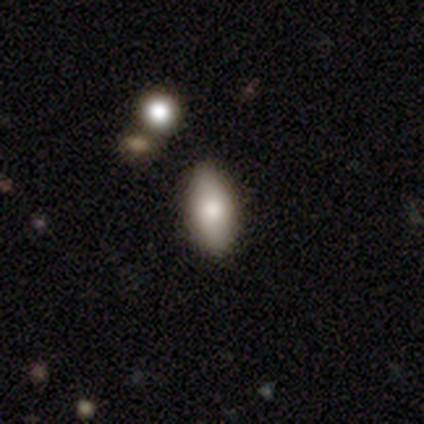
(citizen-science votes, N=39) smooth-or-featured: smooth: 85% | star or artifact: 10% | featured or disk: 5%
  how-rounded: in between: 85% | cigar-shaped: 12% | round: 3%
  merging: none: 94% | minor disturbance: 3% | major disturbance: 3% | merger: 0%